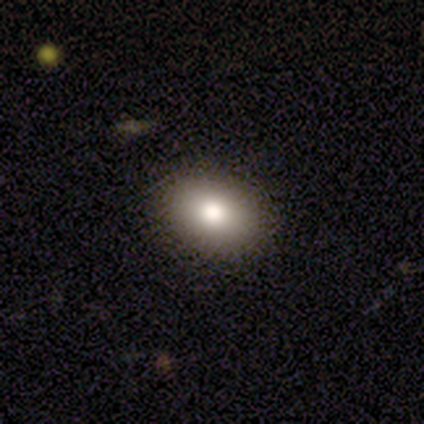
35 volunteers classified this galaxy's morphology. Smooth or featured? smooth (80%)
How rounded? in between (86%)
Merging? none (97%)